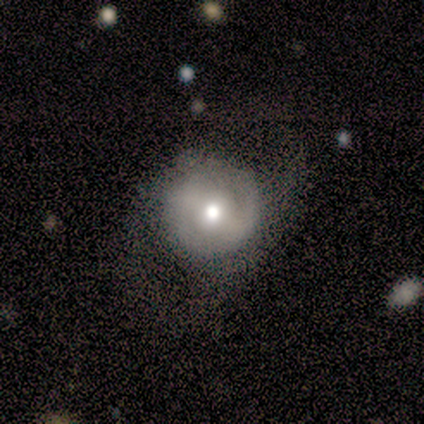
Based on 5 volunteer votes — Smooth or featured? 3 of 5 (60%) said featured or disk. Edge-on disk? 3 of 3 (100%) said no. Bar? 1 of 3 (33%, tied with weak and no) said strong. Spiral arms? 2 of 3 (67%) said no. Bulge size? 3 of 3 (100%) said moderate. Merging? 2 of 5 (40%, tied with major disturbance) said none.